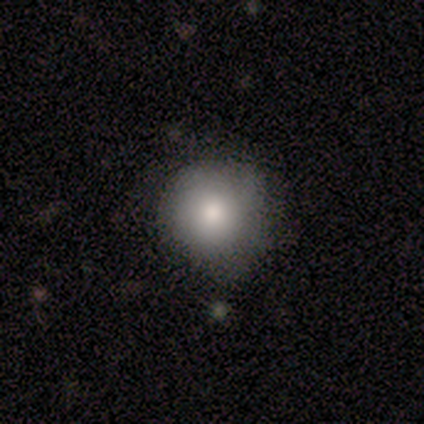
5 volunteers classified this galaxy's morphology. Smooth or featured? 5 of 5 (100%) said smooth. How rounded? 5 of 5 (100%) said round. Merging? 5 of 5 (100%) said none.